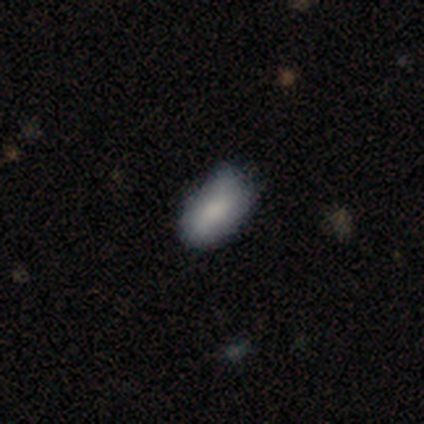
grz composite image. It shows a smooth galaxy with no disk features (80%) that is in between round and cigar-shaped (100%). Merging: minor disturbance (60%).